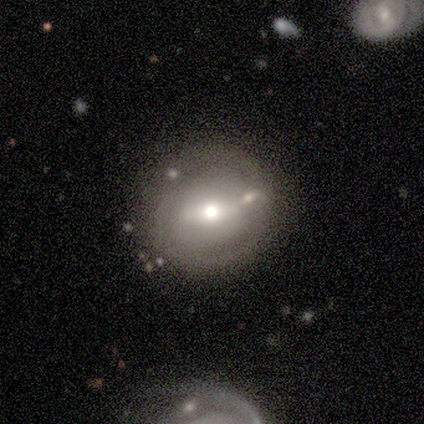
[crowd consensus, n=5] featured or disk 80%, smooth 20%, star or artifact 0%. Down the decision tree: edge-on disk — no (100%); bar — weak (75%); spiral arms — no (100%); bulge size — moderate (100%); merging — none (60%).